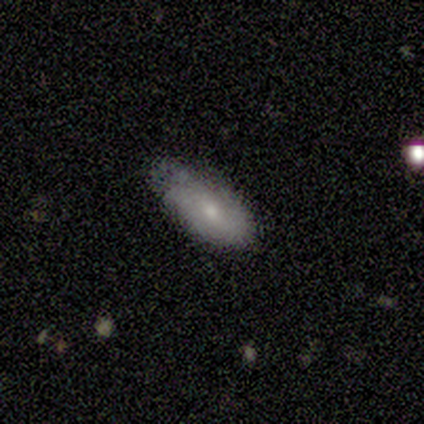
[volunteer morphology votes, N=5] smooth 80%, featured or disk 20%, star or artifact 0%. Down the decision tree: how rounded — in between (100%); merging — minor disturbance (60%).